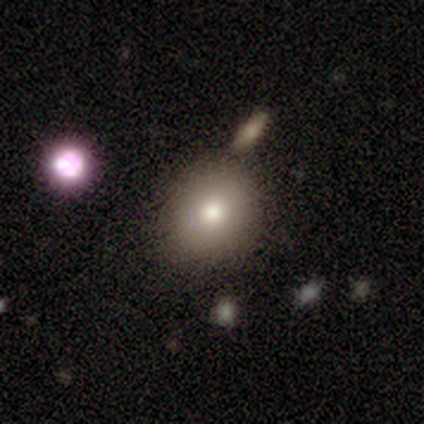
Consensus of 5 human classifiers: A smooth galaxy with no disk features (100%) that is round (80%).

Vote fractions:
- Smooth or featured? smooth: 100% / featured or disk: 0% / star or artifact: 0%
- How rounded? round: 80% / in between: 20% / cigar-shaped: 0%
- Merging? none: 80% / merger: 20% / minor disturbance: 0% / major disturbance: 0%